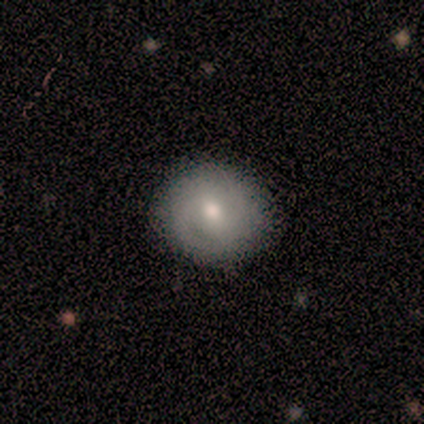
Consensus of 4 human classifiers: smooth-or-featured: featured or disk: 50% | smooth: 25% | star or artifact: 25%
  disk-edge-on: no: 100% | yes: 0%
    bar: no: 100% | strong: 0% | weak: 0%
    has-spiral-arms: yes: 50% (tied) | no: 50% (tied)
      spiral-winding: medium: 100% | tight: 0% | loose: 0%
      spiral-arm-count: can't tell: 100% | 1: 0% | 2: 0% | 3: 0% | 4: 0% | more than 4: 0%
    bulge-size: moderate: 100% | dominant: 0% | large: 0% | small: 0% | none: 0%
  merging: none: 100% | minor disturbance: 0% | major disturbance: 0% | merger: 0%